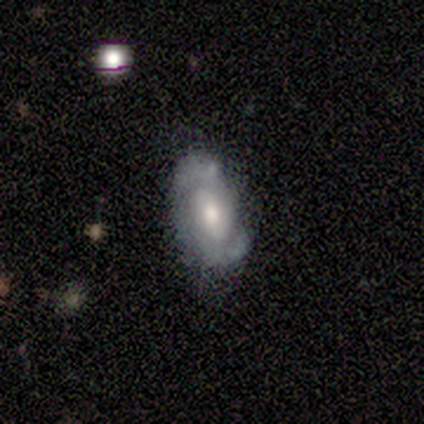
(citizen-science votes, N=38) This appears to be a featured or disk galaxy (71%) with a weak bar (46%), 2 (79%) tight (53%) spiral arms (79%) and a moderate central bulge (50%). Merging: none (61%).